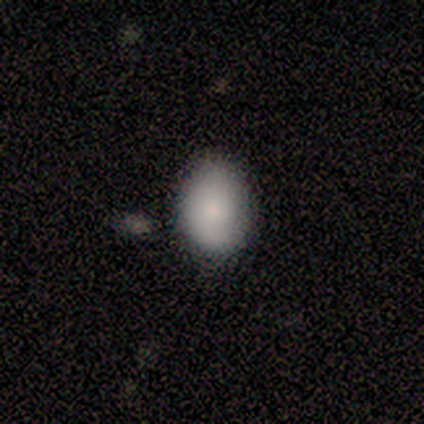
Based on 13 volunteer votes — Smooth or featured? smooth (77%)
How rounded? in between (70%)
Merging? none (92%)